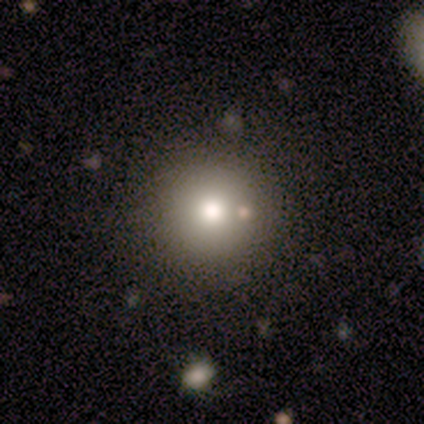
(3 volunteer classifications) Volunteers were most divided on "smooth or featured": smooth: 67%, star or artifact: 33%, featured or disk: 0%. More confident: how rounded — round (100%); merging — none (100%).